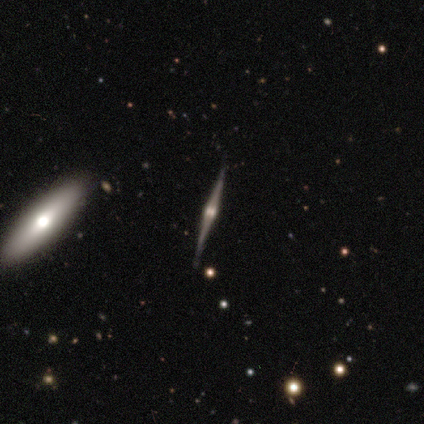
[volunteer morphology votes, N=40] smooth-or-featured: featured or disk: 85% | star or artifact: 10% | smooth: 5%
  disk-edge-on: yes: 100% | no: 0%
    edge-on-bulge: rounded: 91% | boxy: 9% | none: 0%
  merging: none: 64% | merger: 6% | minor disturbance: 3% | major disturbance: 0%